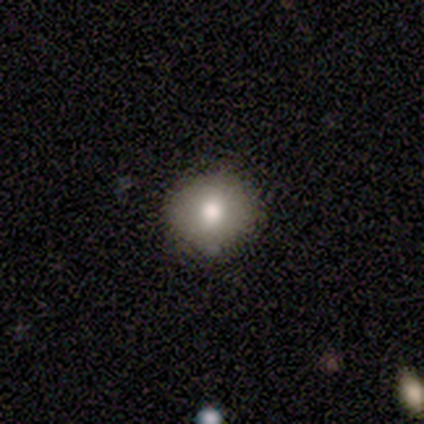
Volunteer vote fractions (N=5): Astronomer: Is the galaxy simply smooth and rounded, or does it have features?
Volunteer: smooth — 100%.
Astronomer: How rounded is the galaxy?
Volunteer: round — 80%.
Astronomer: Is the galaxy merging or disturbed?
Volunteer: none — 80%.